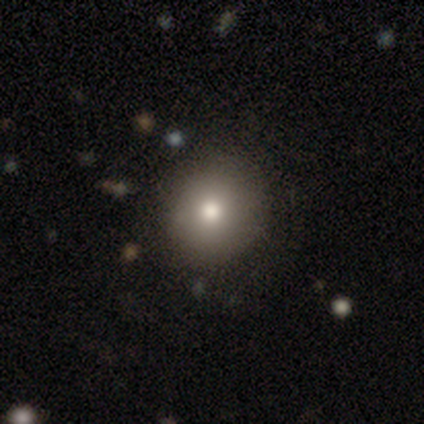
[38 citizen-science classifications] This appears to be a smooth galaxy with no disk features (79%) that is round (90%). Merging: none (91%).